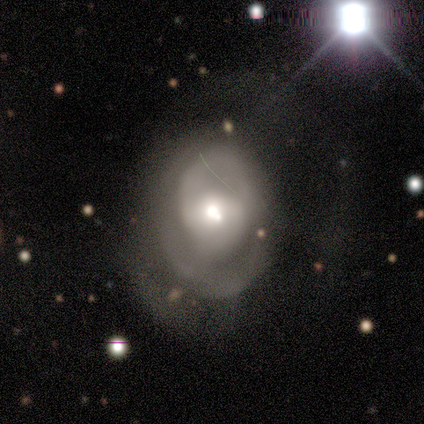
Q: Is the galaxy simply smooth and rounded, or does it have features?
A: featured or disk — 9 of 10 (90%).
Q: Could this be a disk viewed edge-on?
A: no — 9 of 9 (100%).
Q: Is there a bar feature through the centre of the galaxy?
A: no — 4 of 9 (44%).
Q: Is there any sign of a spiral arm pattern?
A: yes — 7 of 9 (78%).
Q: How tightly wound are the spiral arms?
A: medium — 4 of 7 (57%).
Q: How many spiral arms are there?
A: can't tell — 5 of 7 (71%).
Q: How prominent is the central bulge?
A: moderate — 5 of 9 (56%).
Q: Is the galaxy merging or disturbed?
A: none — 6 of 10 (60%).